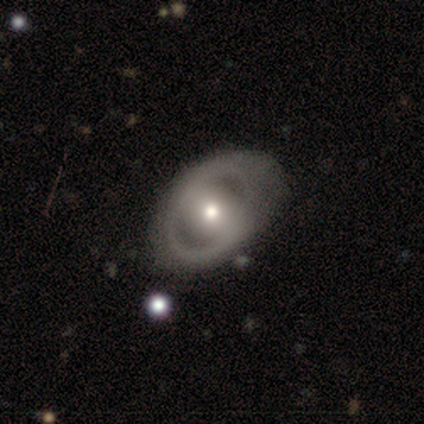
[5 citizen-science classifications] smooth_or_featured: featured or disk (p=0.80) [alt: smooth p=0.20]
disk_edge_on: no (p=1.00)
bar: strong (p=0.50) [alt: weak p=0.25]
has_spiral_arms: yes (p=0.75) [alt: no p=0.25]
spiral_winding: medium (p=0.67) [alt: tight p=0.33]
spiral_arm_count: 2 (p=0.67) [alt: 1 p=0.33]
bulge_size: moderate (p=0.50) [tied with: small p=0.50]
merging: none (p=0.60) [alt: minor disturbance p=0.20]